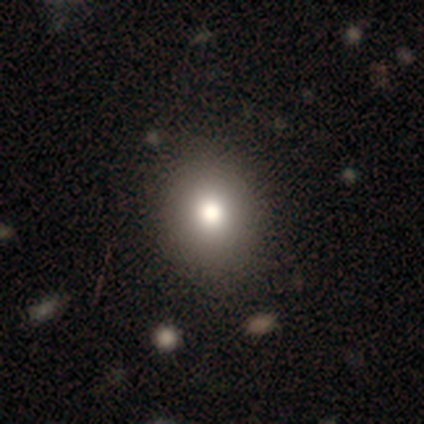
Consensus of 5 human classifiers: Smooth or featured: featured or disk — 60% (smooth — 20%)
Edge-on disk: no — 67% (yes — 33%)
Bar: no — 100%
Spiral arms: no — 100%
Bulge size: large — 50% (tied with moderate — 50%)
Merging: none — 75% (major disturbance — 25%)